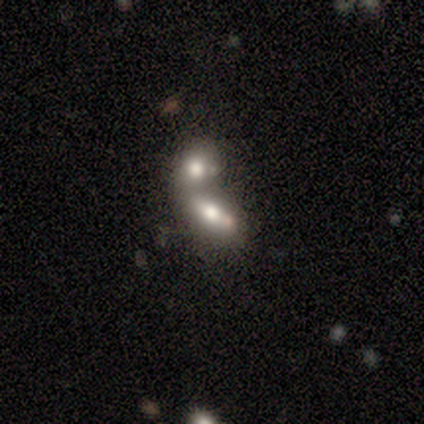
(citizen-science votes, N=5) Overall: featured or disk (80%). Edge-on disk: no (75%). Bar: no (100%). Spiral arms: no (100%). Bulge size: large (33%, tied with moderate and none). Merging: merger (100%).